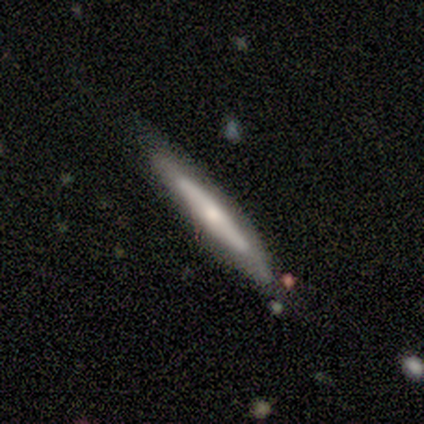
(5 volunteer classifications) Smooth or featured? 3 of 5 (60%) said smooth. How rounded? 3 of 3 (100%) said cigar-shaped. Merging? 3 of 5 (60%) said none.